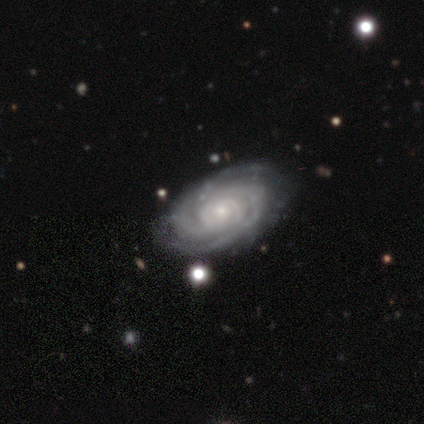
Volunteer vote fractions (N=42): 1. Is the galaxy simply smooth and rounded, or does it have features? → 93% featured or disk, 5% star or artifact, 2% smooth.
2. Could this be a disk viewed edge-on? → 95% no, 5% yes.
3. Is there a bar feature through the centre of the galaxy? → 84% no, 14% weak, 3% strong.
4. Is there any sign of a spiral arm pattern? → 95% yes, 5% no.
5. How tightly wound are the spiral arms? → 83% tight, 14% medium, 3% loose.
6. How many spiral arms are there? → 31% can't tell, 26% 2, 26% 3, 11% 4, 6% more than 4, 0% 1.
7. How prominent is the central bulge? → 73% small, 24% moderate, 3% none, 0% dominant, 0% large.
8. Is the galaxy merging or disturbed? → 80% none, 12% minor disturbance, 5% merger, 2% major disturbance.